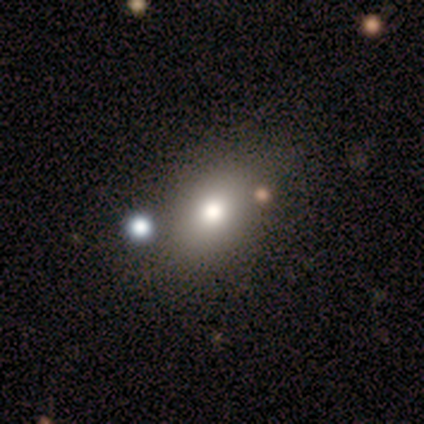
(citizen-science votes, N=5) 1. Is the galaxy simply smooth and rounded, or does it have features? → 80% smooth, 20% star or artifact, 0% featured or disk.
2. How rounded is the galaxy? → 50% round (tied), 50% in between (tied), 0% cigar-shaped.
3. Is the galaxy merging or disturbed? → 100% none, 0% minor disturbance, 0% major disturbance, 0% merger.